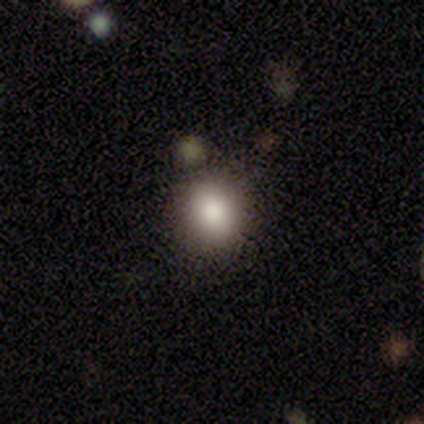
smooth-or-featured: smooth: 80% | featured or disk: 20% | star or artifact: 0%
  how-rounded: round: 100% | in between: 0% | cigar-shaped: 0%
  merging: none: 80% | merger: 20% | minor disturbance: 0% | major disturbance: 0%